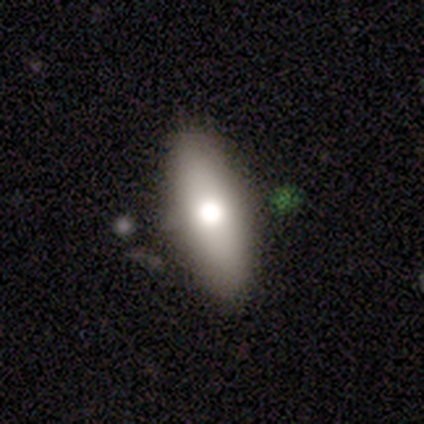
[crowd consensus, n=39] Smooth or featured? smooth (74%)
How rounded? in between (76%)
Merging? none (74%)